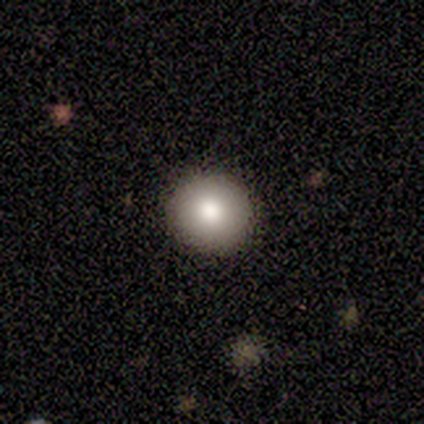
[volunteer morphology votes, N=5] smooth_or_featured: smooth (p=1.00)
how_rounded: round (p=1.00)
merging: none (p=1.00)